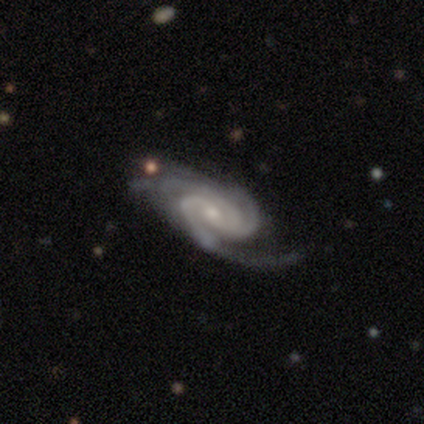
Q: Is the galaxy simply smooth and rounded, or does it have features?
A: featured or disk — 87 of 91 (96%).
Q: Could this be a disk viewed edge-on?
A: no — 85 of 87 (98%).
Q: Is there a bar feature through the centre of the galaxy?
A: no — 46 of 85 (54%).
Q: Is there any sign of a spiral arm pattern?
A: yes — 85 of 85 (100%).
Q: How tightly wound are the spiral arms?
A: tight — 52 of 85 (61%).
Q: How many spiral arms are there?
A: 3 — 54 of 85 (64%).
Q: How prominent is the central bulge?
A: small — 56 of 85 (66%).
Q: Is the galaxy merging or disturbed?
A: none — 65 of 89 (73%).